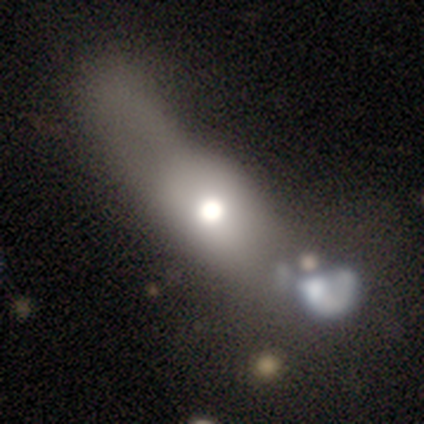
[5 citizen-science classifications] Q: Smooth or featured?
A: smooth (40%); tied with: featured or disk (40%)
Q: How rounded?
A: in between (50%); tied with: cigar-shaped (50%)
Q: Merging?
A: major disturbance (50%); runner-up: none (25%)